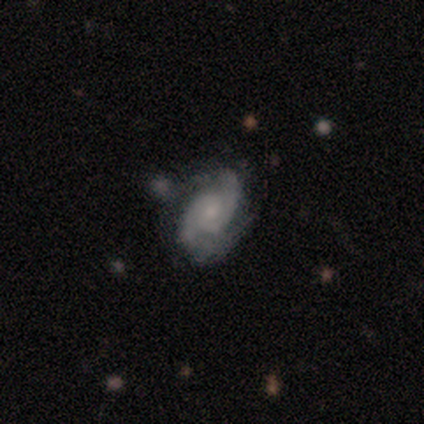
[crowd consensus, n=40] A featured or disk galaxy (88%) with no bar (59%), 2 (79%) medium (44%) spiral arms (100%) and a moderate central bulge (41%).

Vote fractions:
- Smooth or featured? featured or disk: 88% / smooth: 8% / star or artifact: 5%
- Edge-on disk? no: 97% / yes: 3%
- Bar? no: 59% / weak: 24% / strong: 18%
- Spiral arms? yes: 100% / no: 0%
- Spiral winding? medium: 44% / tight: 41% / loose: 15%
- Spiral arm count? 2: 79% / 3: 15% / 1: 3% / more than 4: 3% / 4: 0% / can't tell: 0%
- Bulge size? moderate: 41% / small: 35% / none: 18% / dominant: 6% / large: 0%
- Merging? none: 47% / minor disturbance: 24% / major disturbance: 16% / merger: 13%